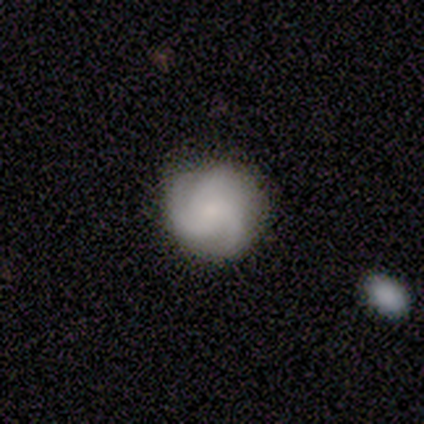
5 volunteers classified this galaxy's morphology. smooth_or_featured: featured or disk (p=0.80) [alt: smooth p=0.20]
disk_edge_on: no (p=1.00)
bar: no (p=1.00)
has_spiral_arms: yes (p=1.00)
spiral_winding: tight (p=0.50) [alt: medium p=0.25]
spiral_arm_count: 3 (p=0.75) [alt: 1 p=0.25]
bulge_size: none (p=0.50) [alt: moderate p=0.25]
merging: none (p=0.80) [alt: merger p=0.20]